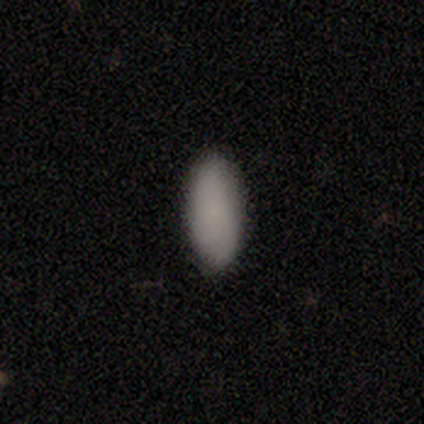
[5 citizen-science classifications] Smooth or featured: smooth — 100%
How rounded: in between — 100%
Merging: none — 80% (minor disturbance — 20%)